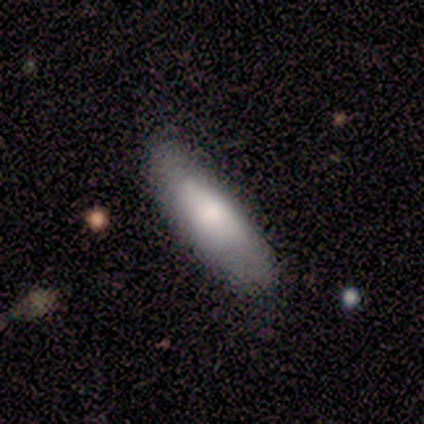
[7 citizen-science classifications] Smooth or featured?
  - smooth: 71% *
  - featured or disk: 14%
  - star or artifact: 14%
How rounded?
  - cigar-shaped: 100% *
  - round: 0%
  - in between: 0%
Merging?
  - none: 83% *
  - minor disturbance: 17%
  - major disturbance: 0%
  - merger: 0%